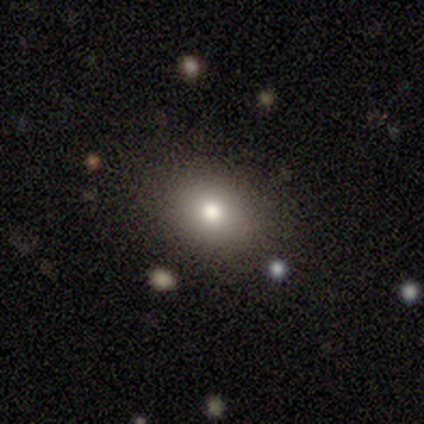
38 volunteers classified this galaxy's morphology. A smooth galaxy with no disk features (74%) that is in between round and cigar-shaped (61%).

Vote fractions:
- Smooth or featured? smooth: 74% / featured or disk: 13% / star or artifact: 13%
- How rounded? in between: 61% / round: 39% / cigar-shaped: 0%
- Merging? none: 94% / minor disturbance: 3% / merger: 3% / major disturbance: 0%